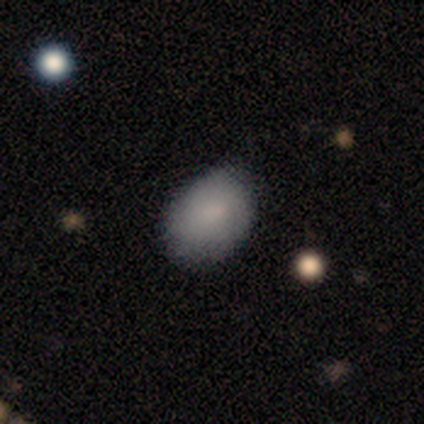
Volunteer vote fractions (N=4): smooth_or_featured: smooth (p=1.00)
how_rounded: in between (p=1.00)
merging: none (p=0.75) [alt: minor disturbance p=0.25]